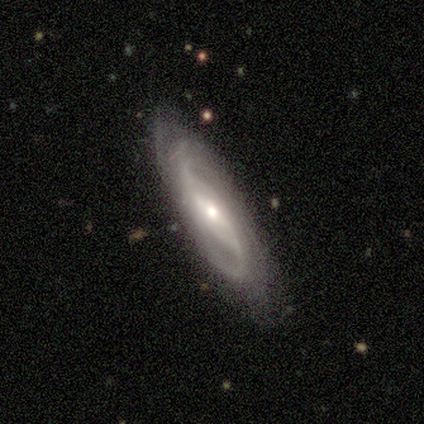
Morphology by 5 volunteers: Smooth or featured?
  - featured or disk: 80% *
  - smooth: 20%
  - star or artifact: 0%
Edge-on disk?
  - no: 100% *
  - yes: 0%
Bar?
  - weak: 50% *
  - strong: 25%
  - no: 25%
Spiral arms?
  - yes: 100% *
  - no: 0%
Spiral winding?
  - medium: 50% * (tied)
  - loose: 50% * (tied)
  - tight: 0%
Spiral arm count?
  - 2: 75% *
  - can't tell: 25%
  - 1: 0%
  - 3: 0%
  - 4: 0%
  - more than 4: 0%
Bulge size?
  - moderate: 75% *
  - small: 25%
  - dominant: 0%
  - large: 0%
  - none: 0%
Merging?
  - none: 80% *
  - minor disturbance: 20%
  - major disturbance: 0%
  - merger: 0%